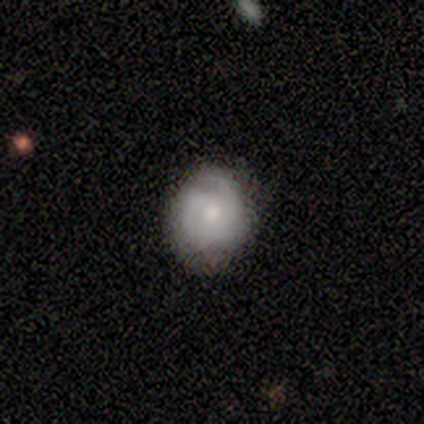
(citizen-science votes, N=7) A featured or disk galaxy (86%) with no bar (100%), 3 (67%) tight (50%, tied with medium) spiral arms (100%) and a moderate central bulge (83%). Merging: none (86%).